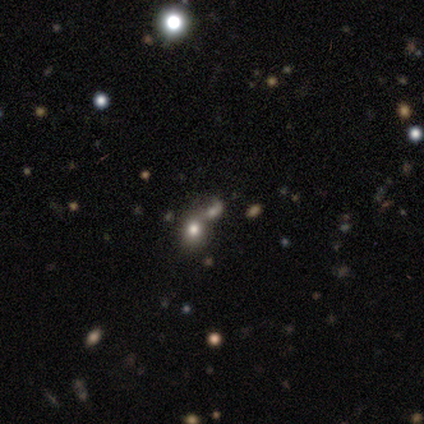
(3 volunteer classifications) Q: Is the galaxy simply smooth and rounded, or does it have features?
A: smooth — 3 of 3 (100%).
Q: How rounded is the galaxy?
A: in between — 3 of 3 (100%).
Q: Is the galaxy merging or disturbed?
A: none — 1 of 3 (33%, tied with minor disturbance and merger).